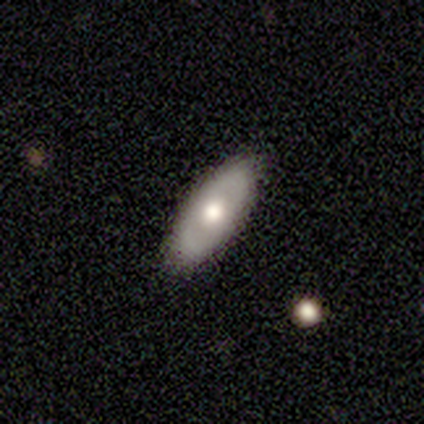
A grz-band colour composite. It shows a smooth galaxy with no disk features (100%) that is in between round and cigar-shaped (80%). Merging: none (60%).